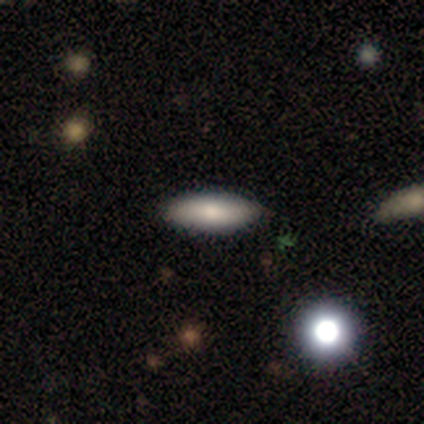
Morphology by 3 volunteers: Overall: featured or disk (67%; smooth 33%). Edge-on disk: yes (100%). Edge-on bulge: rounded (100%). Merging: none (100%).